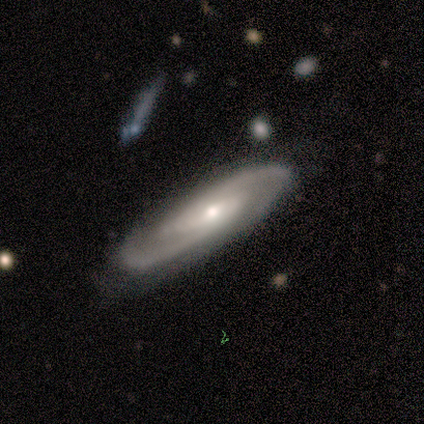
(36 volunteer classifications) Smooth or featured?
  - featured or disk: 89% *
  - smooth: 11%
  - star or artifact: 0%
Edge-on disk?
  - no: 72% *
  - yes: 28%
Bar?
  - weak: 48% *
  - no: 35%
  - strong: 17%
Spiral arms?
  - yes: 96% *
  - no: 4%
Spiral winding?
  - medium: 59% *
  - tight: 32%
  - loose: 9%
Spiral arm count?
  - 2: 86% *
  - 3: 5%
  - 4: 5%
  - can't tell: 5%
  - 1: 0%
  - more than 4: 0%
Bulge size?
  - moderate: 48% *
  - small: 43%
  - large: 9%
  - dominant: 0%
  - none: 0%
Merging?
  - none: 72% *
  - minor disturbance: 19%
  - major disturbance: 6%
  - merger: 3%